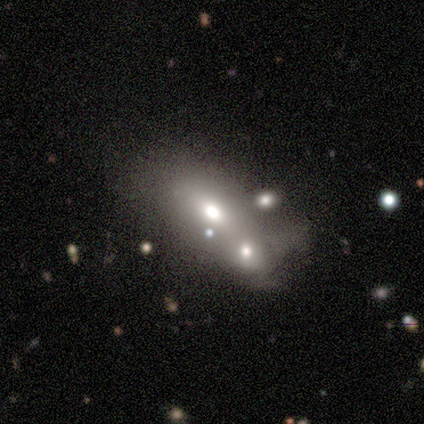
A smooth galaxy with no disk features (60%) that is in between round and cigar-shaped (100%). Merging: merger (50%).